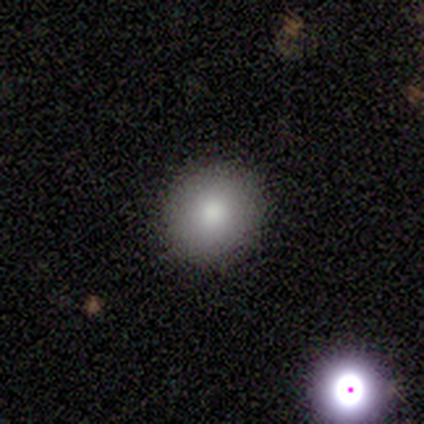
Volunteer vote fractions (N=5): Volunteers were most divided on "smooth or featured": smooth: 60%, star or artifact: 40%, featured or disk: 0%. More confident: how rounded — round (100%); merging — none (100%).